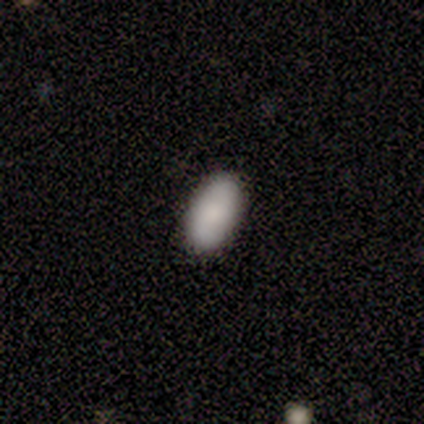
This is likely a smooth galaxy (78%). How rounded: clearly in between (100%). Merging: clearly none (89%).